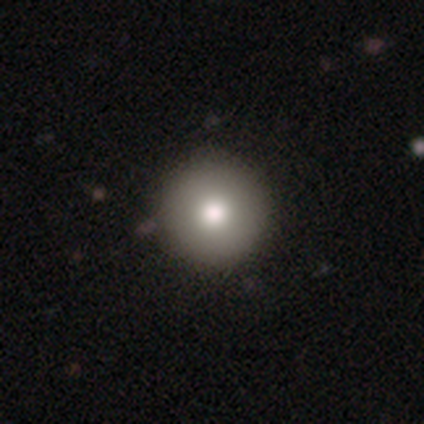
This is clearly a smooth galaxy (88%). How rounded: clearly round (100%). Merging: clearly none (100%).